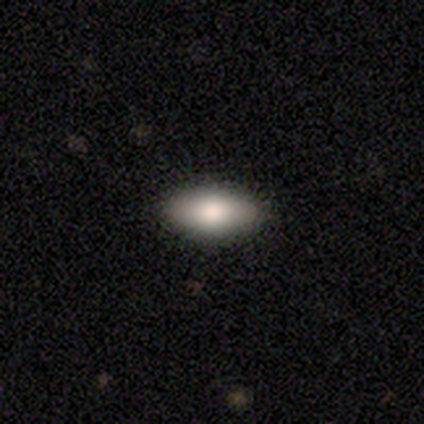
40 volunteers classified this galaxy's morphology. Smooth or featured? smooth (82%)
How rounded? in between (88%)
Merging? none (94%)